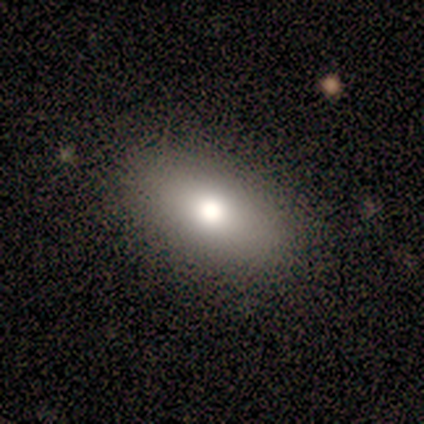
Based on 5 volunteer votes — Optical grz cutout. It shows a smooth galaxy with no disk features (100%) that is in between round and cigar-shaped (80%). Merging: none (100%).